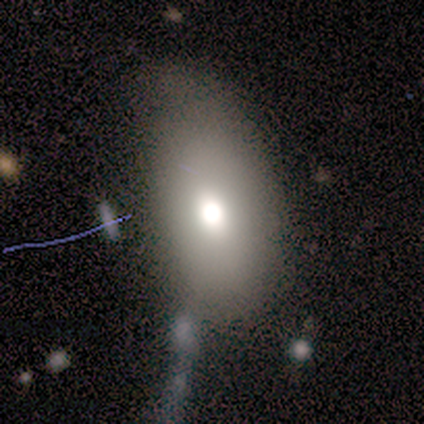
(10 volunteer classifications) Smooth or featured: featured or disk — 40% (smooth — 30%)
Edge-on disk: no — 100%
Bar: no — 100%
Spiral arms: no — 100%
Bulge size: moderate — 75% (large — 25%)
Merging: none — 43% (tied with minor disturbance — 43%)